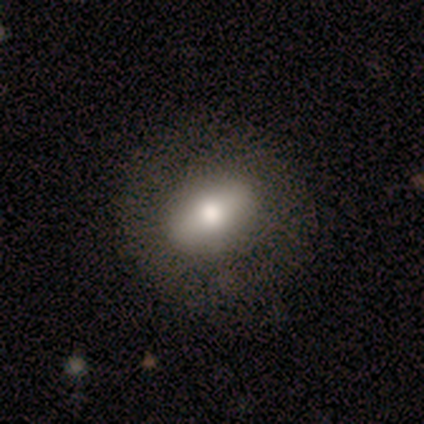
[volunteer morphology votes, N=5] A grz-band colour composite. It shows a featured or disk galaxy (80%) with a strong bar (50%), no spiral arms (100%) and a large central bulge (50%). Merging: none (80%).